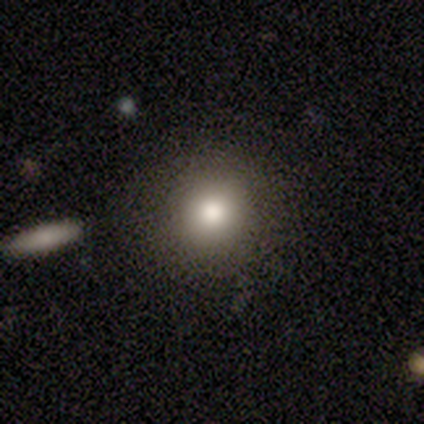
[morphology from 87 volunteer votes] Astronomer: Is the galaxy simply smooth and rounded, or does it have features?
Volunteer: smooth — 85%.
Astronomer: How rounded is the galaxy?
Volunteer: round — 95%.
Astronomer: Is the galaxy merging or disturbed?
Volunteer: none — 89%.